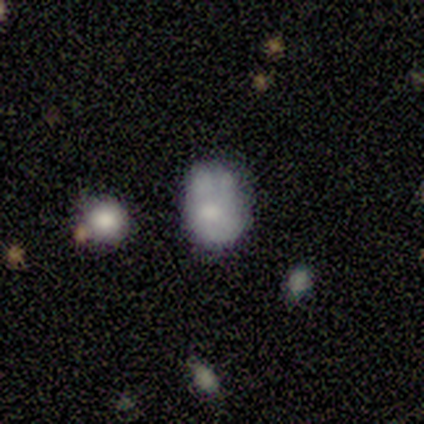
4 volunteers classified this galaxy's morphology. Smooth or featured?
  - smooth: 50% * (tied)
  - featured or disk: 50% * (tied)
  - star or artifact: 0%
How rounded?
  - in between: 100% *
  - round: 0%
  - cigar-shaped: 0%
Merging?
  - none: 25% * (tied)
  - minor disturbance: 25% * (tied)
  - major disturbance: 25% * (tied)
  - merger: 25% * (tied)